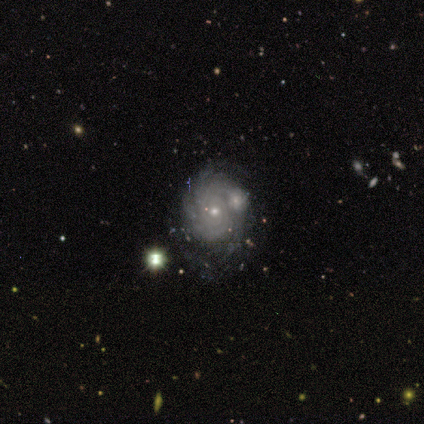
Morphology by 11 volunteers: This is clearly a featured or disk galaxy (100%). It is clearly not viewed edge-on (91%). Bar: clearly no (90%). Spiral arm pattern: clearly yes (100%). Spiral arm count: likely can't tell (60%). Spiral winding: likely tight (70%). Central bulge: clearly small (90%). Merging: clearly none (82%).